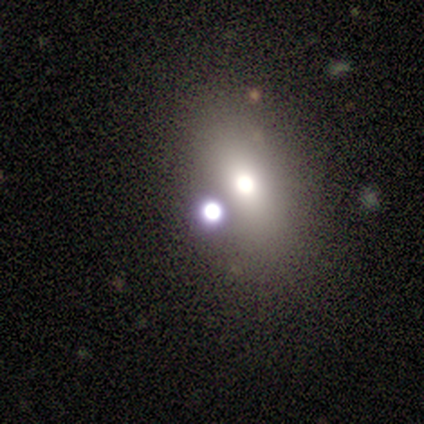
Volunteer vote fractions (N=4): smooth 50%, featured or disk 25%, star or artifact 25%. Down the decision tree: how rounded — round (100%); merging — minor disturbance (67%).